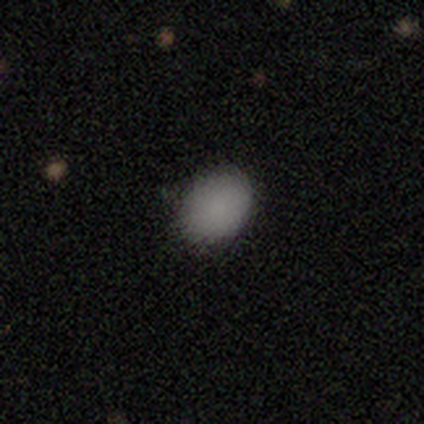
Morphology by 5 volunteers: Smooth or featured? 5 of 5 (100%) said smooth. How rounded? 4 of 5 (80%) said in between. Merging? 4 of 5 (80%) said none.